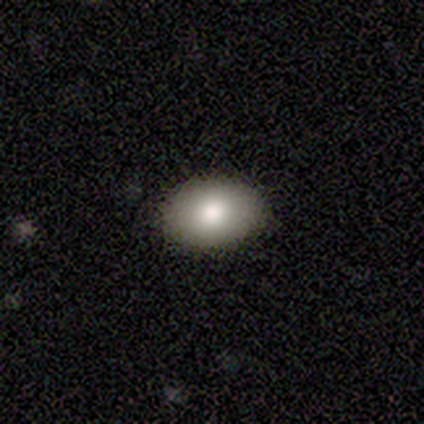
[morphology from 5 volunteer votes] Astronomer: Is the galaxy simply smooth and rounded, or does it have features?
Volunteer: smooth — 60% (runner-up: star or artifact, 40%).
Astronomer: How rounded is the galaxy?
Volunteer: in between — 100%.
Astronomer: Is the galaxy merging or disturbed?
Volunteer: none — 100%.